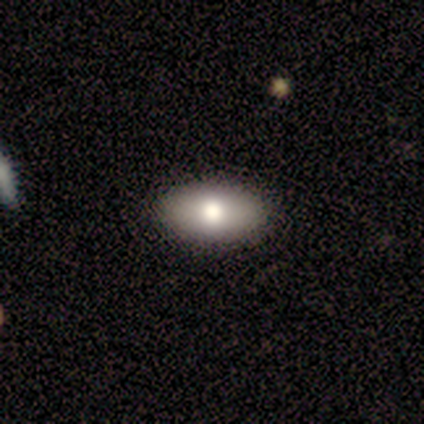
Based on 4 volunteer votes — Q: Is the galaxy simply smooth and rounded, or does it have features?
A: smooth — 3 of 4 (75%).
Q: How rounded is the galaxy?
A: in between — 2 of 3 (67%).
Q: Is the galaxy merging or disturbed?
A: none — 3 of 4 (75%).